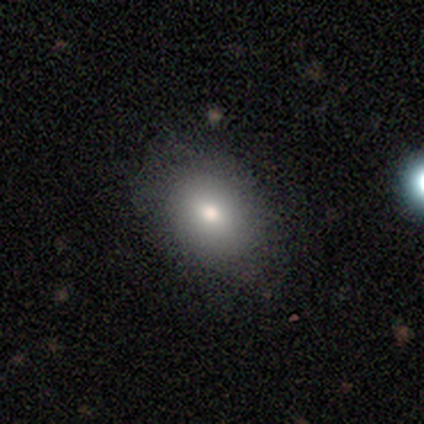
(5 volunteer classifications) Smooth or featured: smooth — 100%
How rounded: in between — 80% (round — 20%)
Merging: none — 80% (minor disturbance — 20%)